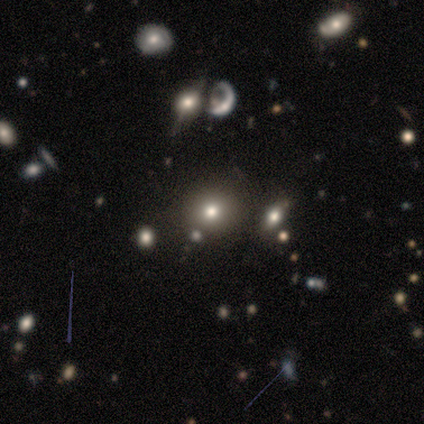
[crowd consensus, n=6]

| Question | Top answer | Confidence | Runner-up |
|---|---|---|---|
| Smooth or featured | smooth | 50% | tied: featured or disk (50%) |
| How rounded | round | 100% | — |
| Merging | none | 50% | merger (33%) |